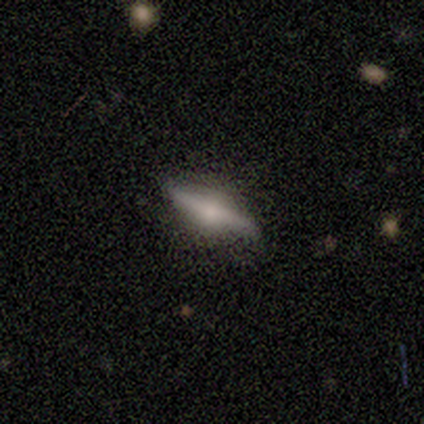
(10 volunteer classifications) smooth_or_featured: smooth (p=0.50) [tied with: featured or disk p=0.50]
how_rounded: cigar-shaped (p=0.80) [alt: in between p=0.20]
merging: none (p=0.80) [alt: minor disturbance p=0.20]